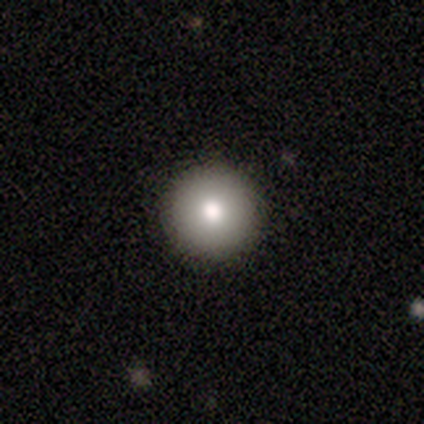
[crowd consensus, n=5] Q: Smooth or featured?
A: smooth (100%)
Q: How rounded?
A: round (100%)
Q: Merging?
A: none (100%)